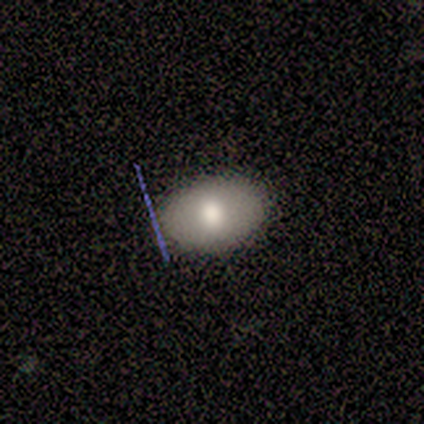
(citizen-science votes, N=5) Smooth or featured?
  - smooth: 40% * (tied)
  - featured or disk: 40% * (tied)
  - star or artifact: 20%
How rounded?
  - in between: 100% *
  - round: 0%
  - cigar-shaped: 0%
Merging?
  - none: 100% *
  - minor disturbance: 0%
  - major disturbance: 0%
  - merger: 0%